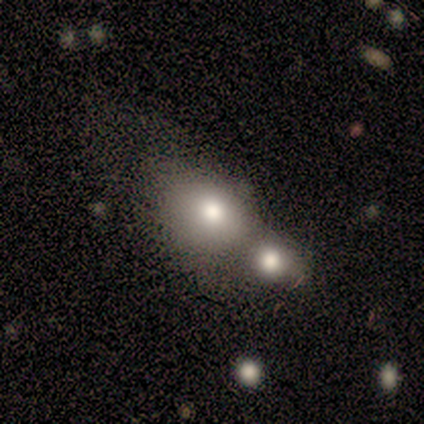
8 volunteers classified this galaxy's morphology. smooth_or_featured: smooth (p=0.88) [alt: star or artifact p=0.12]
how_rounded: round (p=0.57) [alt: in between p=0.43]
merging: merger (p=0.57) [alt: none p=0.29]